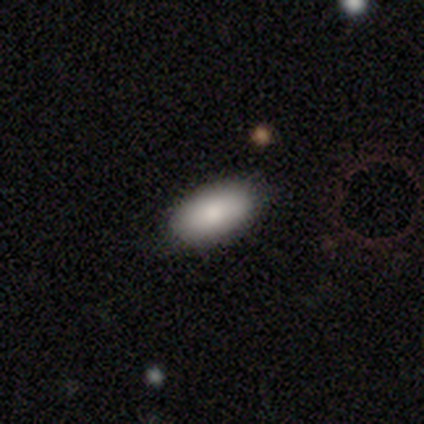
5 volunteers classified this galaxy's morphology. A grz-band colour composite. It shows a smooth galaxy with no disk features (100%) that is in between round and cigar-shaped (80%). Merging: none (100%).